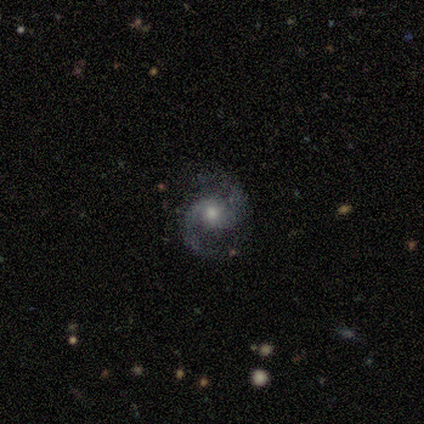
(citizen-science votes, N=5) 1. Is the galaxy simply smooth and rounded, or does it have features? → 80% featured or disk, 20% star or artifact, 0% smooth.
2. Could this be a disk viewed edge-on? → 100% no, 0% yes.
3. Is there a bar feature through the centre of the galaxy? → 75% no, 25% weak, 0% strong.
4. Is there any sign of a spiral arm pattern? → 100% yes, 0% no.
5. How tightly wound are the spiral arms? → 75% medium, 25% tight, 0% loose.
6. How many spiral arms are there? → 100% 2, 0% 1, 0% 3, 0% 4, 0% more than 4, 0% can't tell.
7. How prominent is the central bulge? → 75% moderate, 25% small, 0% dominant, 0% large, 0% none.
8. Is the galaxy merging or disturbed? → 100% none, 0% minor disturbance, 0% major disturbance, 0% merger.